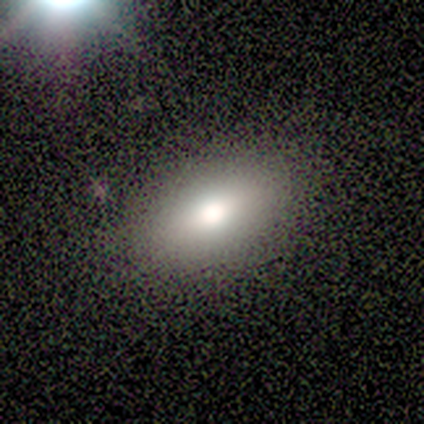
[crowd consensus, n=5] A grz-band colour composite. It shows a smooth galaxy with no disk features (60%) that is in between round and cigar-shaped (100%). Merging: none (100%).